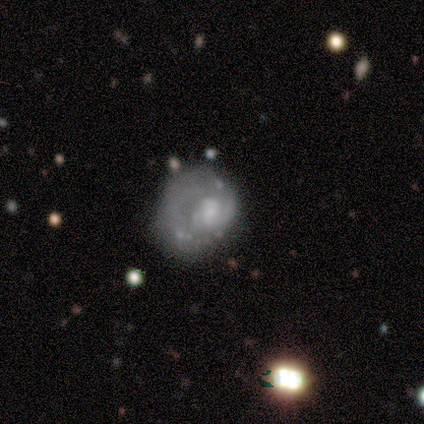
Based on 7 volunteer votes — Q: Smooth or featured?
A: featured or disk (71%); runner-up: smooth (14%)
Q: Edge-on disk?
A: no (100%)
Q: Bar?
A: no (80%); runner-up: weak (20%)
Q: Spiral arms?
A: no (60%); runner-up: yes (40%)
Q: Bulge size?
A: moderate (40%); runner-up: large (20%)
Q: Merging?
A: major disturbance (50%); runner-up: minor disturbance (33%)